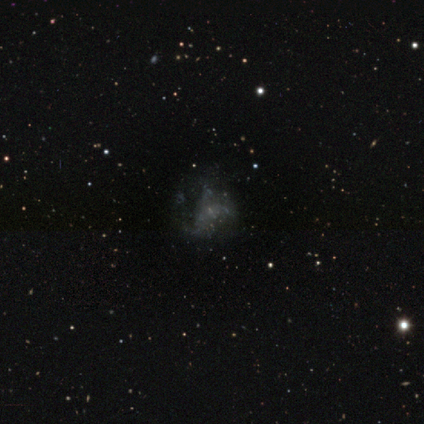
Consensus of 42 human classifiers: A featured or disk galaxy (60%) with no bar (92%), no spiral arms (76%) and no central bulge (56%).

Vote fractions:
- Smooth or featured? featured or disk: 60% / smooth: 21% / star or artifact: 19%
- Edge-on disk? no: 100% / yes: 0%
- Bar? no: 92% / weak: 8% / strong: 0%
- Spiral arms? no: 76% / yes: 24%
- Bulge size? none: 56% / small: 44% / dominant: 0% / large: 0% / moderate: 0%
- Merging? major disturbance: 44% / none: 35% / minor disturbance: 18% / merger: 3%